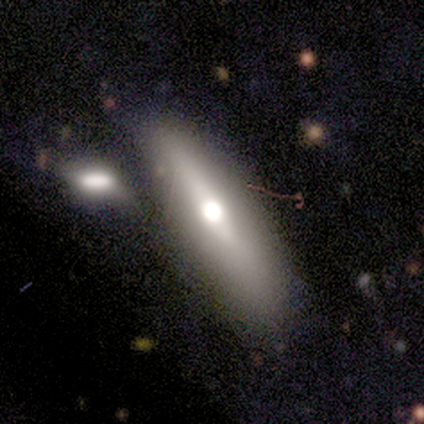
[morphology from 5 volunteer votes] A smooth galaxy with no disk features (60%) that is cigar-shaped (67%).

Vote fractions:
- Smooth or featured? smooth: 60% / featured or disk: 20% / star or artifact: 20%
- How rounded? cigar-shaped: 67% / in between: 33% / round: 0%
- Merging? none: 75% / major disturbance: 25% / minor disturbance: 0% / merger: 0%